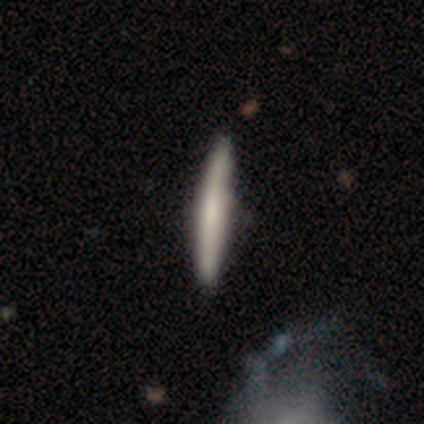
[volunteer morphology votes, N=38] This appears to be a smooth galaxy with no disk features (55%) that is cigar-shaped (95%). Merging: none (49%).